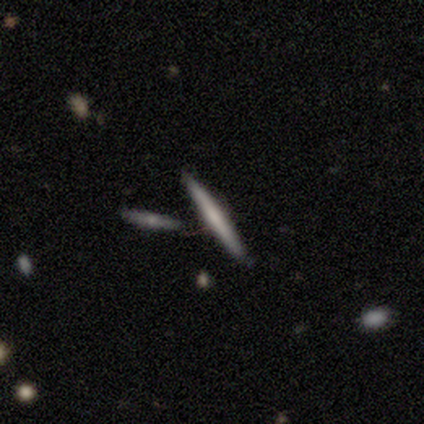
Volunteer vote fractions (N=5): Overall: featured or disk (60%; smooth 40%). Edge-on disk: yes (100%). Edge-on bulge: none (67%; rounded 33%). Merging: none (80%).